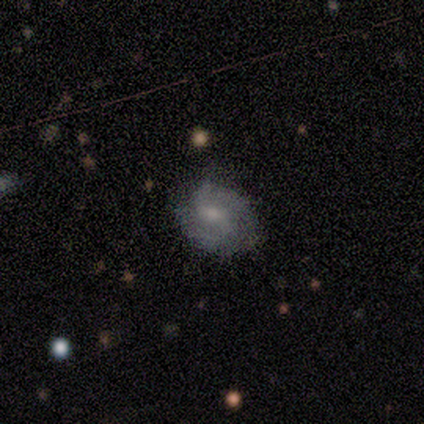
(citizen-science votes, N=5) Smooth or featured? smooth (60%)
How rounded? round (67%)
Merging? none (100%)